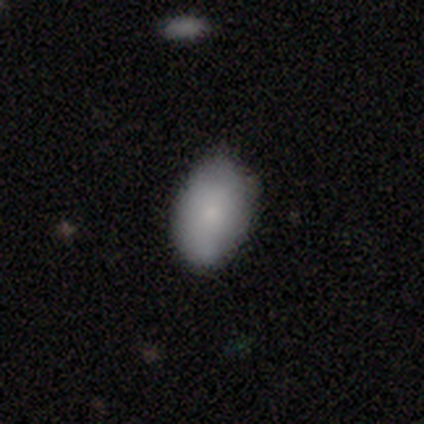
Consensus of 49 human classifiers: Overall: smooth (88%). How rounded: in between (81%). Merging: none (64%; minor disturbance 27%).